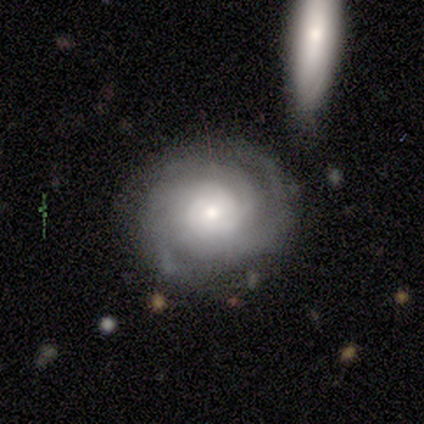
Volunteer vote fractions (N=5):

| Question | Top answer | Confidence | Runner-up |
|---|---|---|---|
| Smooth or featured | featured or disk | 100% | — |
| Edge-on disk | no | 100% | — |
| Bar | no | 100% | — |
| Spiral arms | yes | 80% | no (20%) |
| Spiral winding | tight | 100% | — |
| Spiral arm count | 3 | 50% | 4 (25%) |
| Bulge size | small | 80% | large (20%) |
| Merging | none | 80% | minor disturbance (20%) |